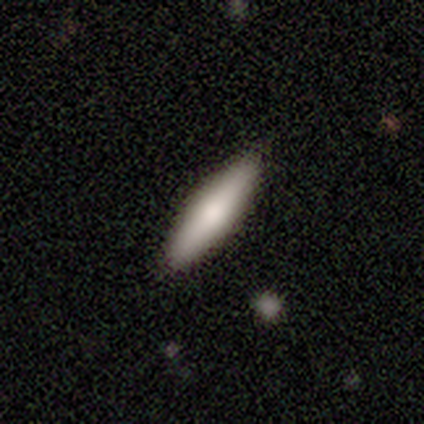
Morphology: type=smooth (56%); roundness=cigar-shaped (73%); merging=none (86%).